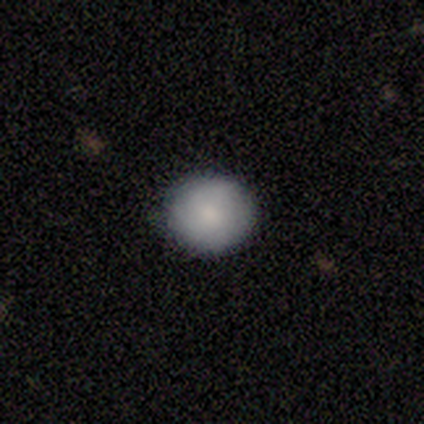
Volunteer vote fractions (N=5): Smooth or featured? 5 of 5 (100%) said smooth. How rounded? 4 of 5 (80%) said round. Merging? 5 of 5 (100%) said none.